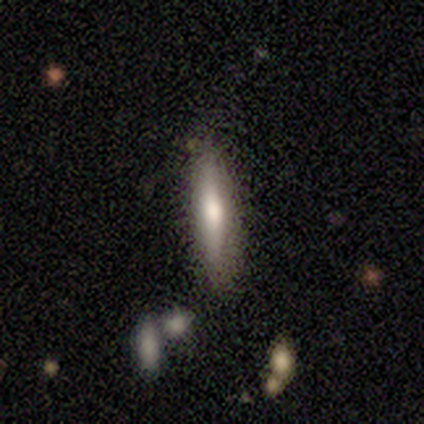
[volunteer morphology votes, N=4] This is clearly a smooth galaxy (100%). How rounded: clearly cigar-shaped (100%). Merging: likely none (75%).